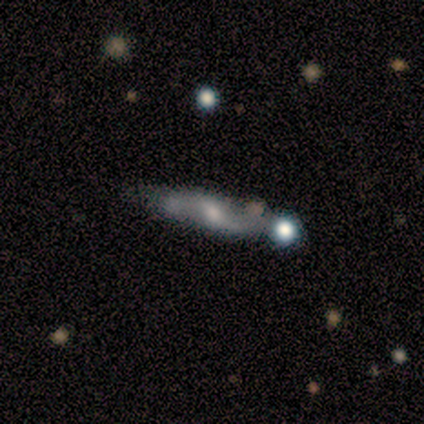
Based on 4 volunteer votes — This is likely a featured or disk galaxy (75%). It is likely viewed edge-on (67%). Edge-on bulge: clearly rounded (100%). Merging: possibly none (50%, tied with merger).